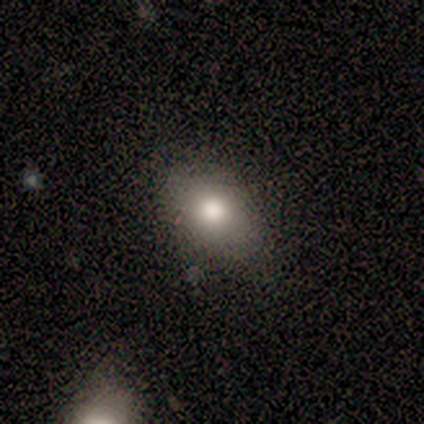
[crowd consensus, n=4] Q: Smooth or featured?
A: featured or disk (50%); runner-up: smooth (25%)
Q: Edge-on disk?
A: yes (50%); tied with: no (50%)
Q: Edge-on bulge?
A: rounded (100%)
Q: Merging?
A: none (67%); runner-up: minor disturbance (33%)